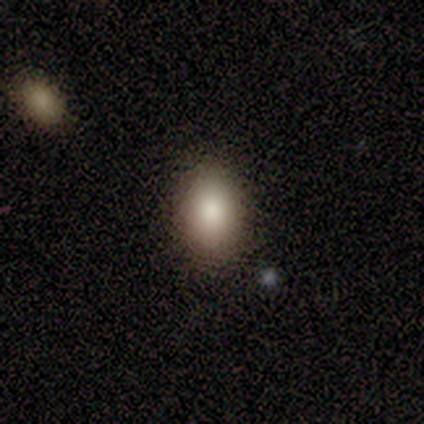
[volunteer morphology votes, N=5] Smooth or featured? smooth (80%)
How rounded? in between (100%)
Merging? none (100%)